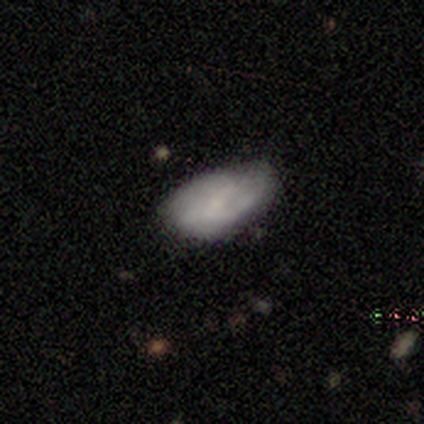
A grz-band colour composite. It shows a featured or disk galaxy (53%) with a weak bar (50%), medium (53%) spiral arms (83%) and a small central bulge (61%). Merging: none (61%).